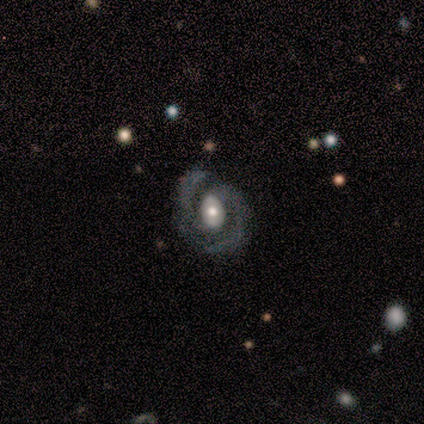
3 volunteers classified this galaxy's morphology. This appears to be a featured or disk galaxy (100%) with no bar (100%), 2 (67%) medium (67%) spiral arms (100%) and a moderate central bulge (67%). Merging: none (100%).